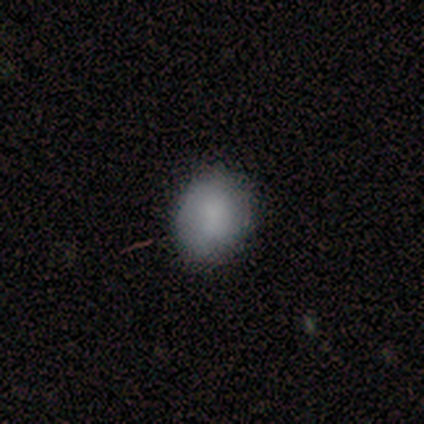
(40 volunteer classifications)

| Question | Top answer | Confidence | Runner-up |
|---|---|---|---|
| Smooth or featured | smooth | 80% | featured or disk (12%) |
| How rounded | in between | 53% | round (47%) |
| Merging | none | 78% | minor disturbance (16%) |